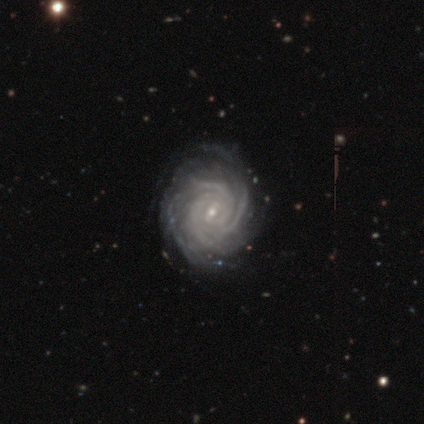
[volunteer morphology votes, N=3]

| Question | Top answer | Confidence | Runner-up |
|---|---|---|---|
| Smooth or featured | featured or disk | 100% | — |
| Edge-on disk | no | 100% | — |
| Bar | no | 67% | weak (33%) |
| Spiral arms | yes | 100% | — |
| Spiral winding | tight | 100% | — |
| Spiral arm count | can't tell | 67% | 3 (33%) |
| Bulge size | small | 100% | — |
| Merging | none | 100% | — |